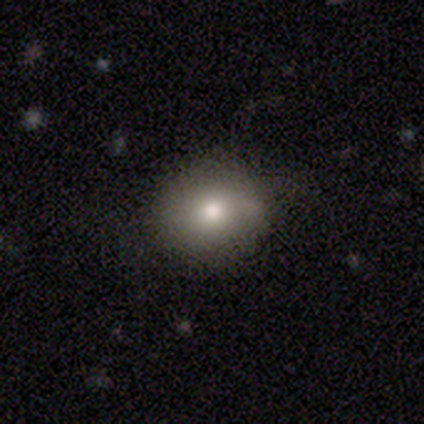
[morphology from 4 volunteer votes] smooth 100%, featured or disk 0%, star or artifact 0%. Down the decision tree: how rounded — round (75%); merging — none (100%).